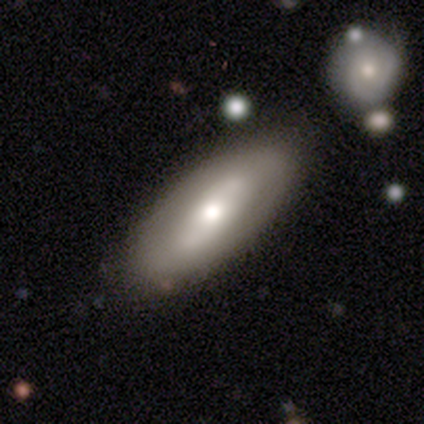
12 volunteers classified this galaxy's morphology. Overall: featured or disk (58%; smooth 42%). Edge-on disk: no (57%; yes 43%). Bar: weak (50%, tied with no). Spiral arms: no (75%). Bulge size: moderate (75%). Merging: none (67%; minor disturbance 33%).